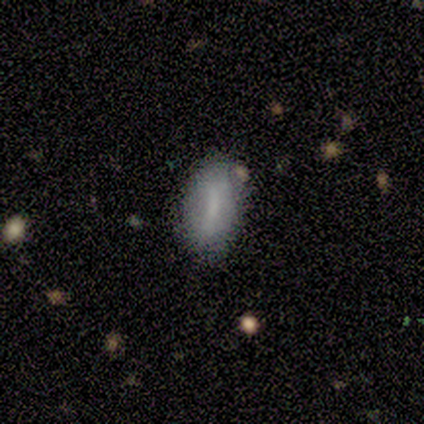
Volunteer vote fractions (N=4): This is possibly a smooth galaxy (50%, tied with featured or disk). How rounded: clearly in between (100%). Merging: possibly none (50%).